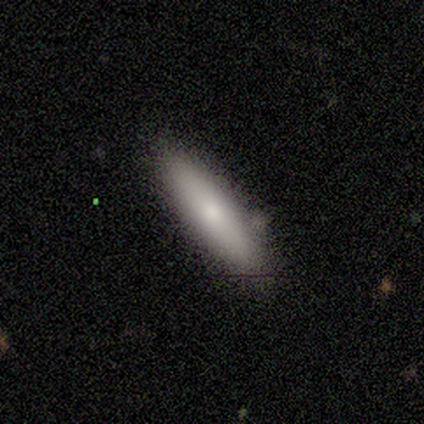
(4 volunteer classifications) Smooth or featured?
  - smooth: 50% * (tied)
  - featured or disk: 50% * (tied)
  - star or artifact: 0%
How rounded?
  - cigar-shaped: 100% *
  - round: 0%
  - in between: 0%
Merging?
  - none: 75% *
  - minor disturbance: 25%
  - major disturbance: 0%
  - merger: 0%